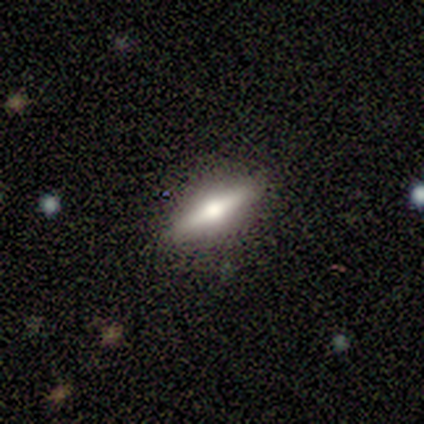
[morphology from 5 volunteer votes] type=smooth (60%); roundness=cigar-shaped (100%); merging=none (80%).